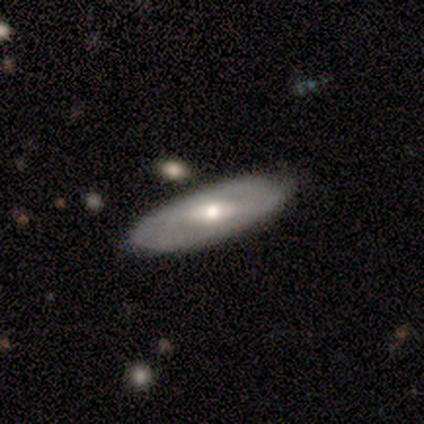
smooth-or-featured: featured or disk: 64% | smooth: 29% | star or artifact: 7%
  disk-edge-on: no: 96% | yes: 4%
    bar: strong: 42% (tied) | weak: 42% (tied) | no: 15%
    has-spiral-arms: yes: 50% (tied) | no: 50% (tied)
      spiral-winding: tight: 69% | medium: 23% | loose: 8%
      spiral-arm-count: 2: 62% | can't tell: 31% | 3: 8% | 1: 0% | 4: 0% | more than 4: 0%
    bulge-size: moderate: 73% | small: 15% | large: 12% | dominant: 0% | none: 0%
  merging: none: 74% | minor disturbance: 21% | merger: 5% | major disturbance: 0%